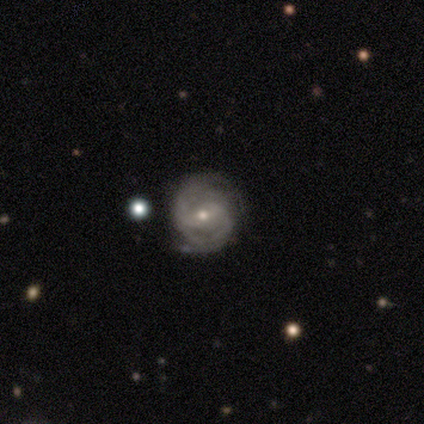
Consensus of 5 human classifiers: A featured or disk galaxy (80%) with a strong bar (50%), 2 (50%, tied with can't tell) medium (50%) spiral arms (100%) and a small central bulge (100%).

Vote fractions:
- Smooth or featured? featured or disk: 80% / smooth: 20% / star or artifact: 0%
- Edge-on disk? no: 100% / yes: 0%
- Bar? strong: 50% / weak: 25% / no: 25%
- Spiral arms? yes: 100% / no: 0%
- Spiral winding? medium: 50% / tight: 25% / loose: 25%
- Spiral arm count? 2: 50% (tied) / can't tell: 50% (tied) / 1: 0% / 3: 0% / 4: 0% / more than 4: 0%
- Bulge size? small: 100% / dominant: 0% / large: 0% / moderate: 0% / none: 0%
- Merging? none: 80% / minor disturbance: 20% / major disturbance: 0% / merger: 0%